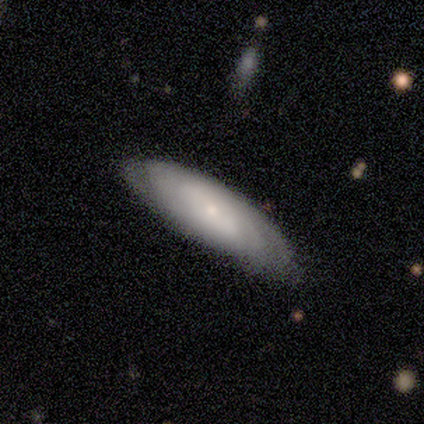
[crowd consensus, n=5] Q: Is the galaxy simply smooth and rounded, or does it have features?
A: featured or disk — 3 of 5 (60%).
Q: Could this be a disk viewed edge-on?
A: no — 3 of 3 (100%).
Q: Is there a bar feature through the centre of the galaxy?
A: no — 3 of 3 (100%).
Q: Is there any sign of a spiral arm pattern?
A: yes — 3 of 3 (100%).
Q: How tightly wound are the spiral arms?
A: tight — 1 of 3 (33%, tied with medium and loose).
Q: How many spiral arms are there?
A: can't tell — 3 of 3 (100%).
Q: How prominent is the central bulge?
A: small — 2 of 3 (67%).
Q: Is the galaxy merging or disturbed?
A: none — 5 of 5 (100%).